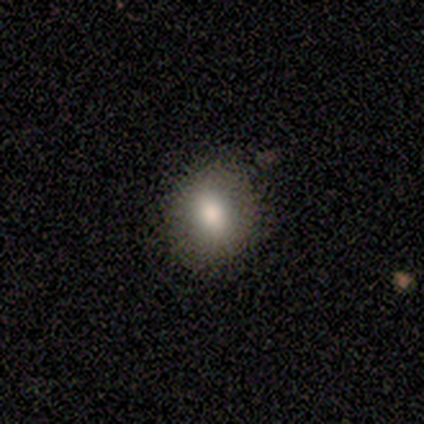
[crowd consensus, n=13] smooth-or-featured: smooth: 100% | featured or disk: 0% | star or artifact: 0%
  how-rounded: round: 54% | in between: 46% | cigar-shaped: 0%
  merging: none: 85% | minor disturbance: 8% | merger: 8% | major disturbance: 0%